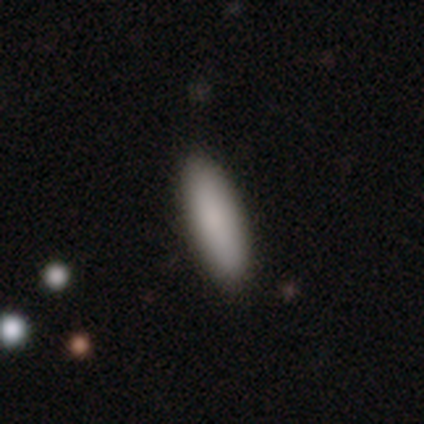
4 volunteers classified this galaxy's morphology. A smooth galaxy with no disk features (100%) that is in between round and cigar-shaped (50%, tied with cigar-shaped). Merging: none (100%).